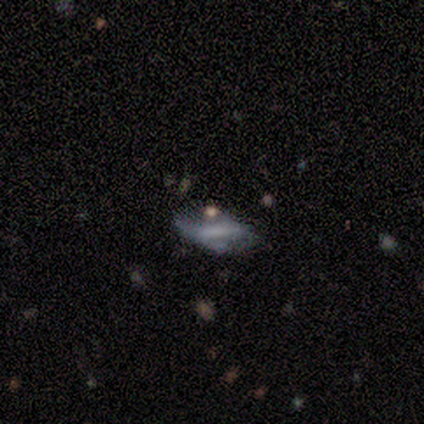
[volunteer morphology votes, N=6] smooth-or-featured: featured or disk: 67% | smooth: 17% | star or artifact: 17%
  disk-edge-on: no: 100% | yes: 0%
    bar: no: 75% | strong: 25% | weak: 0%
    has-spiral-arms: yes: 50% (tied) | no: 50% (tied)
      spiral-winding: loose: 100% | tight: 0% | medium: 0%
      spiral-arm-count: 1: 50% (tied) | can't tell: 50% (tied) | 2: 0% | 3: 0% | 4: 0% | more than 4: 0%
    bulge-size: none: 75% | small: 25% | dominant: 0% | large: 0% | moderate: 0%
  merging: major disturbance: 100% | none: 0% | minor disturbance: 0% | merger: 0%